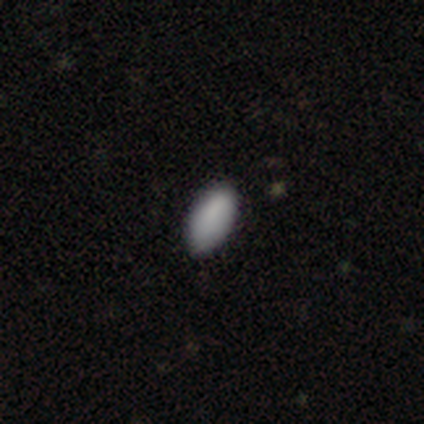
Smooth or featured? 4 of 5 (80%) said smooth. How rounded? 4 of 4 (100%) said in between. Merging? 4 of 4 (100%) said none.